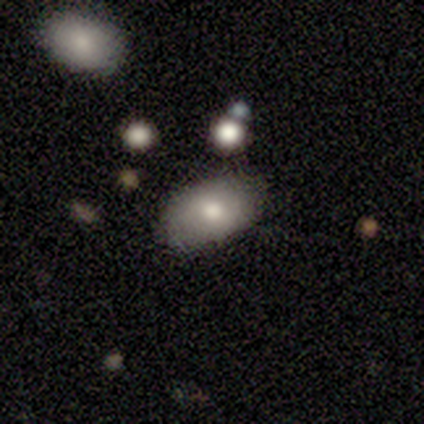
Volunteers were most divided on "smooth or featured": smooth: 80%, featured or disk: 20%, star or artifact: 0%. More confident: how rounded — in between (100%); merging — none (80%).